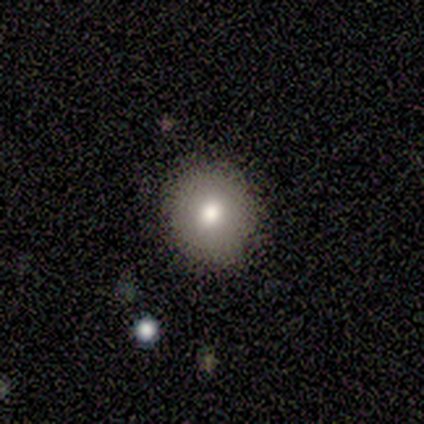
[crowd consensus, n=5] A smooth galaxy with no disk features (80%) that is round (75%).

Vote fractions:
- Smooth or featured? smooth: 80% / featured or disk: 20% / star or artifact: 0%
- How rounded? round: 75% / in between: 25% / cigar-shaped: 0%
- Merging? none: 100% / minor disturbance: 0% / major disturbance: 0% / merger: 0%